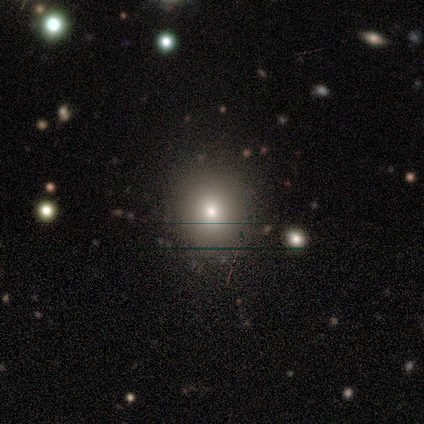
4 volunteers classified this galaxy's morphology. This is likely a smooth galaxy (75%). How rounded: clearly round (100%). Merging: clearly none (100%).